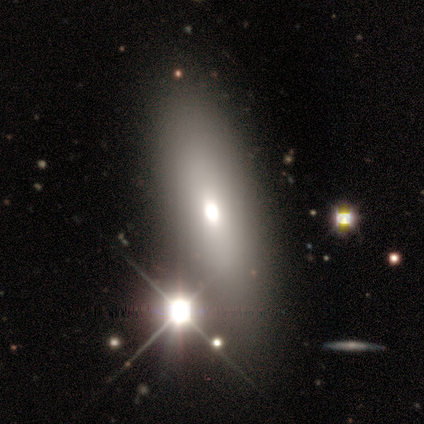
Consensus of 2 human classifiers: smooth-or-featured: smooth: 50% (tied) | star or artifact: 50% (tied) | featured or disk: 0%
  how-rounded: in between: 100% | round: 0% | cigar-shaped: 0%
  merging: minor disturbance: 100% | none: 0% | major disturbance: 0% | merger: 0%